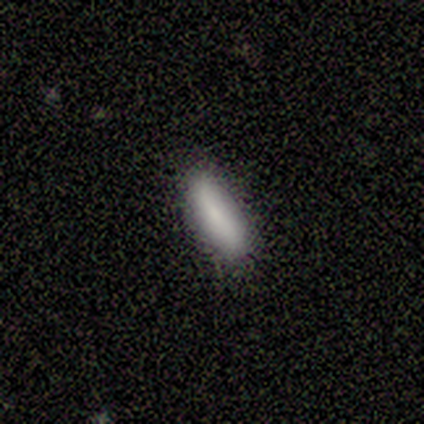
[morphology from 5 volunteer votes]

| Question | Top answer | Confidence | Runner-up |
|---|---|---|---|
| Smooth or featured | smooth | 100% | — |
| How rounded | cigar-shaped | 60% | in between (40%) |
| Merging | minor disturbance | 60% | none (40%) |